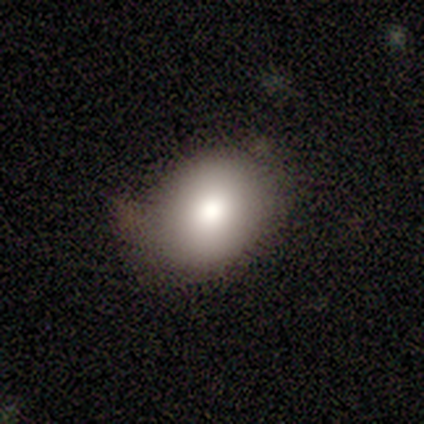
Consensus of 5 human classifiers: A smooth galaxy with no disk features (60%) that is round (67%).

Vote fractions:
- Smooth or featured? smooth: 60% / star or artifact: 40% / featured or disk: 0%
- How rounded? round: 67% / in between: 33% / cigar-shaped: 0%
- Merging? none: 100% / minor disturbance: 0% / major disturbance: 0% / merger: 0%